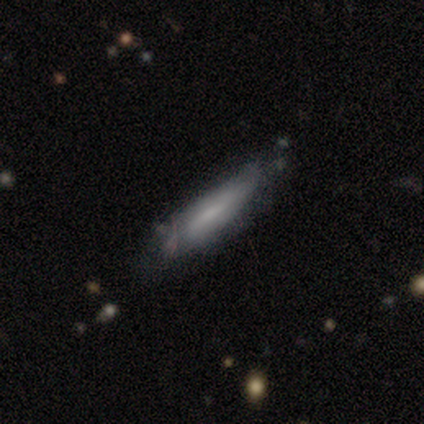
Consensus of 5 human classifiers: This is clearly a smooth galaxy (80%). How rounded: clearly cigar-shaped (100%). Merging: likely none (60%).